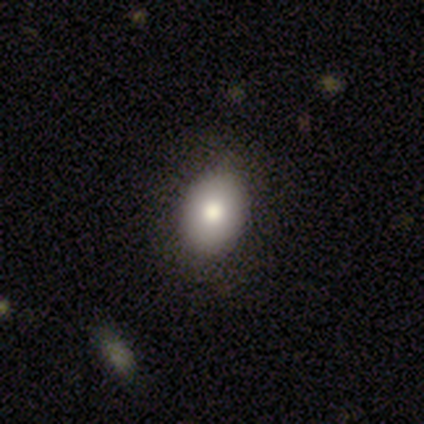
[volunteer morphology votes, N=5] Overall: smooth (100%). How rounded: in between (100%). Merging: none (80%).